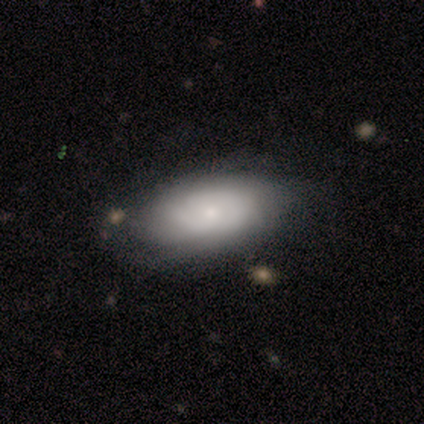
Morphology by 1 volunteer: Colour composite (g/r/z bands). It shows a smooth galaxy with no disk features (100%) that is in between round and cigar-shaped (100%). Merging: minor disturbance (100%).